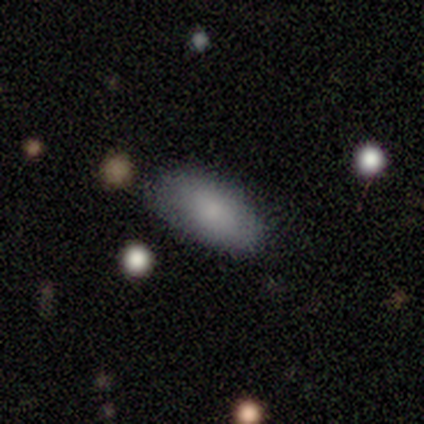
Morphology: type=smooth (100%); roundness=in between (67%); merging=none (67%).